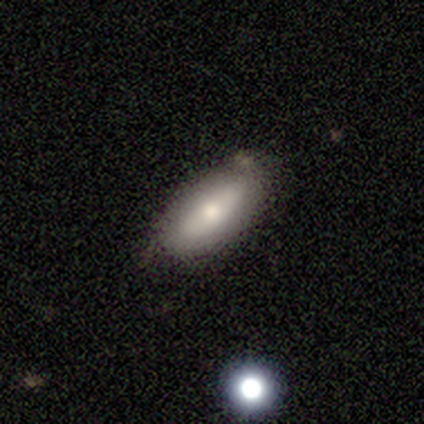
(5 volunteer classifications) A smooth galaxy with no disk features (80%) that is in between round and cigar-shaped (100%).

Vote fractions:
- Smooth or featured? smooth: 80% / featured or disk: 20% / star or artifact: 0%
- How rounded? in between: 100% / round: 0% / cigar-shaped: 0%
- Merging? none: 80% / minor disturbance: 20% / major disturbance: 0% / merger: 0%